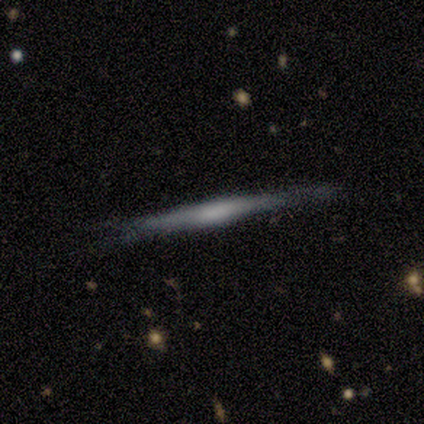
This appears to be a featured or disk galaxy (62%) viewed edge-on (91%) with no central bulge (57%). Merging: none (75%).